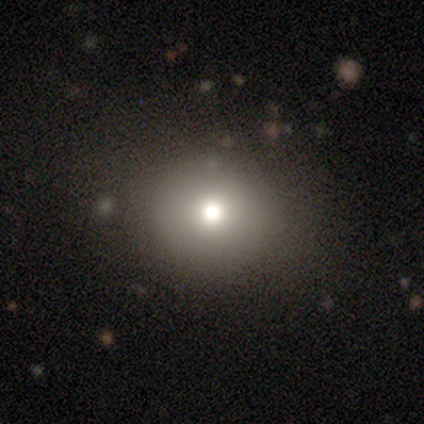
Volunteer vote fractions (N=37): Morphology: type=smooth (89%); roundness=round (91%); merging=none (81%).